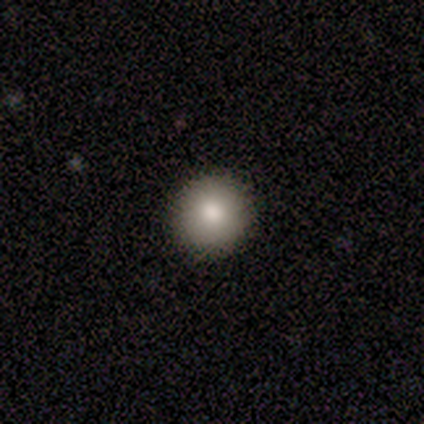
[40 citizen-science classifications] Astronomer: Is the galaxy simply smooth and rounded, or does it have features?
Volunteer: smooth — 82%.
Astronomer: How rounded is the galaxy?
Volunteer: round — 97%.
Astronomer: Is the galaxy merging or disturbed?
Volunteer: none — 100%.